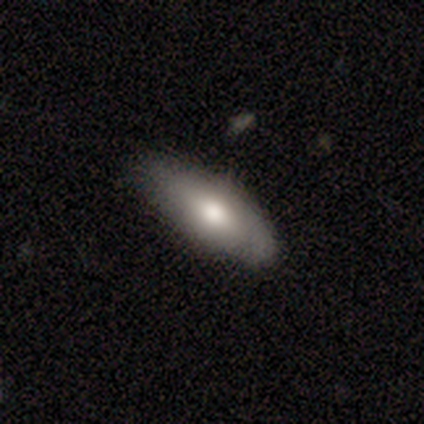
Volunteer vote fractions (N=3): This is clearly a smooth galaxy (100%). How rounded: likely in between (67%). Merging: clearly none (100%).